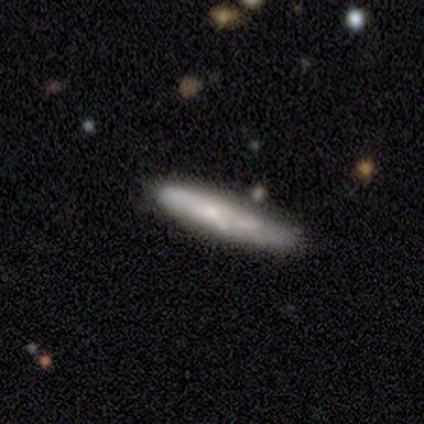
This is likely a smooth galaxy (65%). How rounded: clearly cigar-shaped (96%). Merging: likely none (74%).